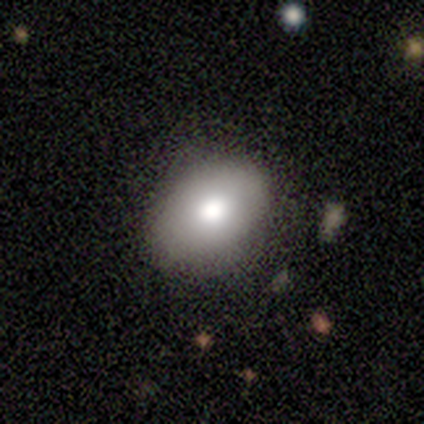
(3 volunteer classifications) A smooth galaxy with no disk features (67%) that is in between round and cigar-shaped (100%).

Vote fractions:
- Smooth or featured? smooth: 67% / star or artifact: 33% / featured or disk: 0%
- How rounded? in between: 100% / round: 0% / cigar-shaped: 0%
- Merging? none: 50% (tied) / minor disturbance: 50% (tied) / major disturbance: 0% / merger: 0%